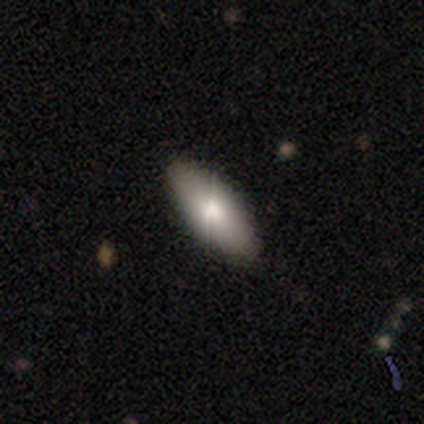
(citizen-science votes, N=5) This is clearly a smooth galaxy (80%). How rounded: likely in between (75%). Merging: likely none (75%).